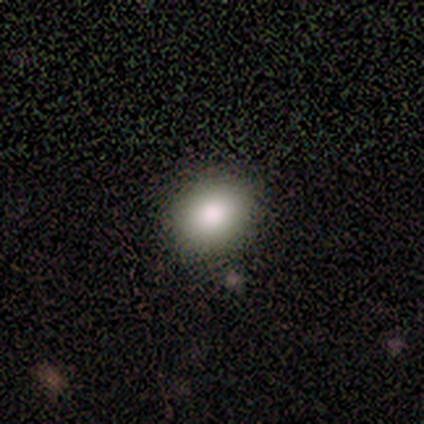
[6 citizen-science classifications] Smooth or featured? smooth (100%)
How rounded? round (50%, tied with in between)
Merging? none (67%)